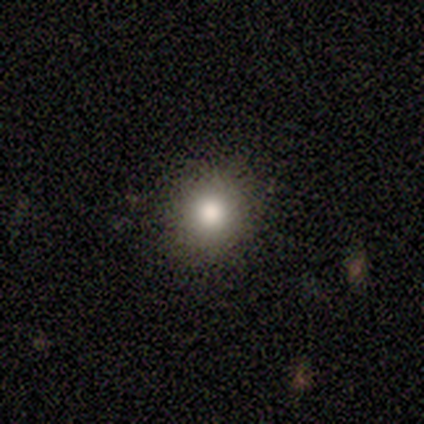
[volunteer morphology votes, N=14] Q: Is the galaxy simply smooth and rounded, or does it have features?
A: smooth — 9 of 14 (64%).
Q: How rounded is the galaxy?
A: round — 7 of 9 (78%).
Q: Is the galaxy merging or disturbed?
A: none — 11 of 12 (92%).